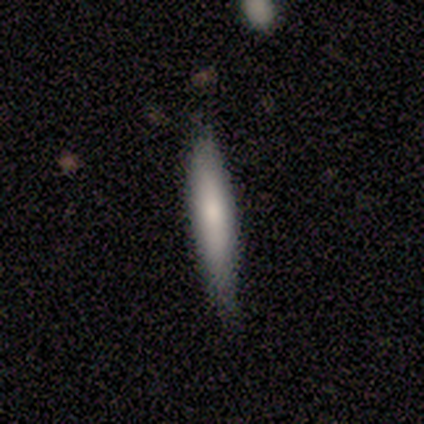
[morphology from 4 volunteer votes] Smooth or featured?
  - smooth: 100% *
  - featured or disk: 0%
  - star or artifact: 0%
How rounded?
  - cigar-shaped: 75% *
  - in between: 25%
  - round: 0%
Merging?
  - none: 75% *
  - minor disturbance: 25%
  - major disturbance: 0%
  - merger: 0%